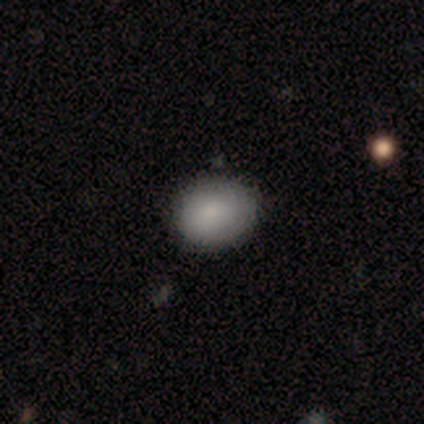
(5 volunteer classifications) Smooth or featured? 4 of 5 (80%) said smooth. How rounded? 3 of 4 (75%) said in between. Merging? 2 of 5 (40%, tied with merger) said minor disturbance.